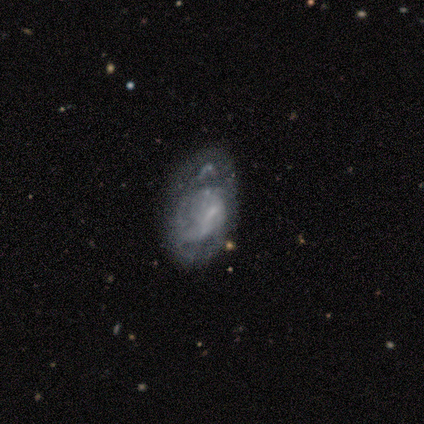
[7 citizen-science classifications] Q: Smooth or featured?
A: featured or disk (57%); runner-up: star or artifact (29%)
Q: Edge-on disk?
A: no (100%)
Q: Bar?
A: no (75%); runner-up: weak (25%)
Q: Spiral arms?
A: yes (75%); runner-up: no (25%)
Q: Spiral winding?
A: medium (67%); runner-up: loose (33%)
Q: Spiral arm count?
A: 1 (67%); runner-up: can't tell (33%)
Q: Bulge size?
A: small (50%); tied with: none (50%)
Q: Merging?
A: minor disturbance (60%); runner-up: none (20%)